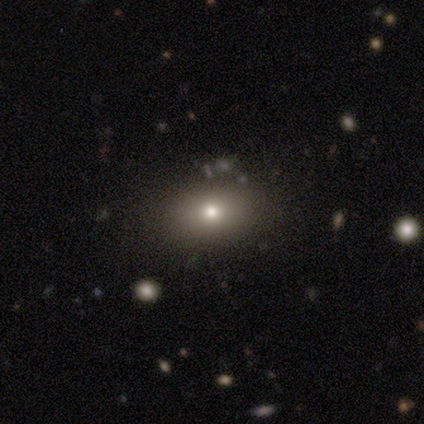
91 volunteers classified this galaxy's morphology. A smooth galaxy with no disk features (70%) that is in between round and cigar-shaped (72%).

Vote fractions:
- Smooth or featured? smooth: 70% / star or artifact: 16% / featured or disk: 13%
- How rounded? in between: 72% / round: 28% / cigar-shaped: 0%
- Merging? none: 86% / minor disturbance: 11% / merger: 3% / major disturbance: 1%